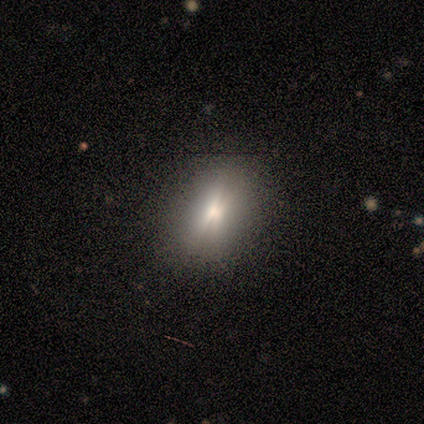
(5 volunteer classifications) Smooth or featured? smooth (40%, tied with star or artifact)
How rounded? in between (100%)
Merging? none (67%)